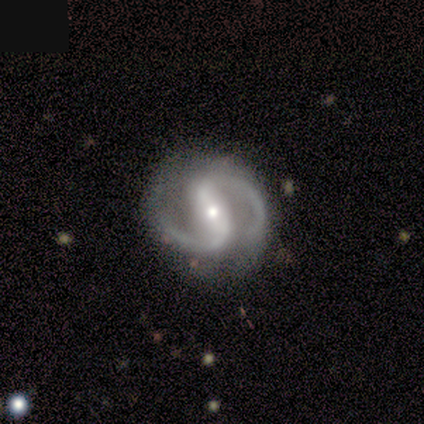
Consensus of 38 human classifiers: Smooth or featured: featured or disk — 97% (smooth — 3%)
Edge-on disk: no — 100%
Bar: strong — 57% (weak — 35%)
Spiral arms: yes — 95% (no — 5%)
Spiral winding: medium — 69% (loose — 23%)
Spiral arm count: 2 — 100%
Bulge size: small — 59% (moderate — 38%)
Merging: none — 79% (minor disturbance — 13%)